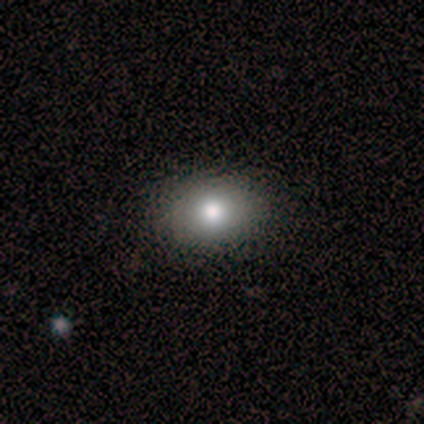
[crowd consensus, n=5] Smooth or featured? 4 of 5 (80%) said smooth. How rounded? 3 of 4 (75%) said in between. Merging? 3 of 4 (75%) said none.